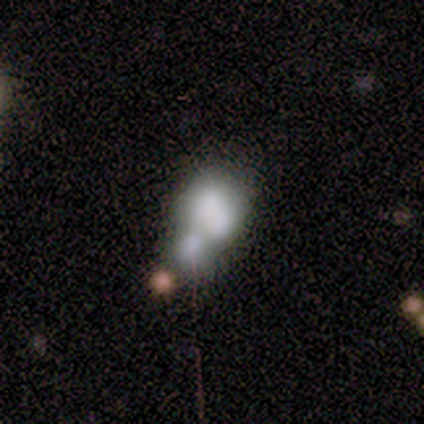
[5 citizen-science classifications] Smooth or featured? smooth (60%)
How rounded? round (67%)
Merging? merger (50%)